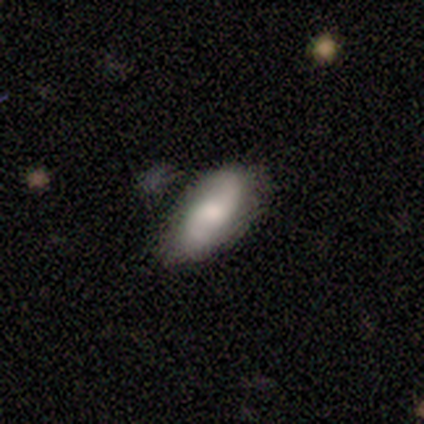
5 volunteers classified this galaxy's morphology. This appears to be a smooth galaxy with no disk features (60%) that is in between round and cigar-shaped (100%). Merging: none (60%).